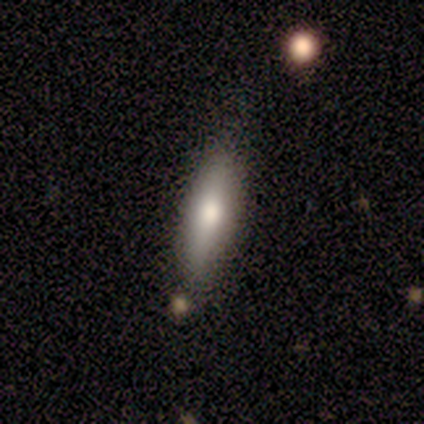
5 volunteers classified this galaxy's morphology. A smooth galaxy with no disk features (100%) that is cigar-shaped (60%). Merging: none (80%).